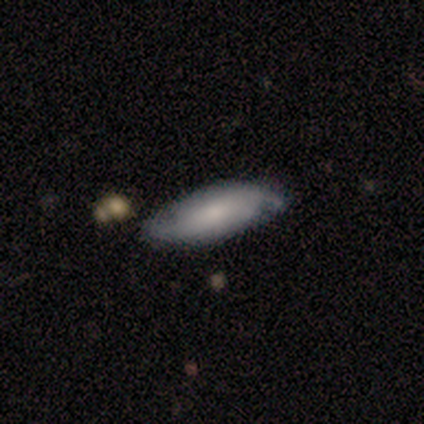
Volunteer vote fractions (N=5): This appears to be a smooth galaxy with no disk features (40%, tied with featured or disk) that is in between round and cigar-shaped (100%). Merging: none (100%).